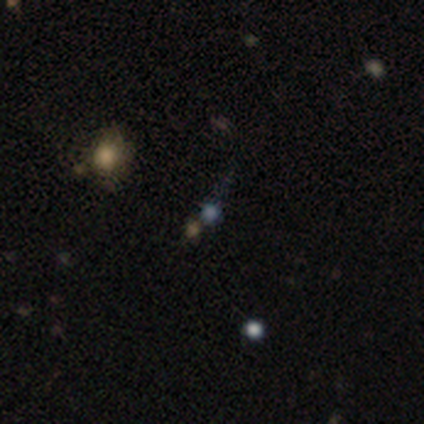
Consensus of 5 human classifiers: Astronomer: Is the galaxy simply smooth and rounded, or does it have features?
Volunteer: featured or disk — 40%, tied with star or artifact at 40%.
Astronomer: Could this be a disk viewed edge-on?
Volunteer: no — 100%.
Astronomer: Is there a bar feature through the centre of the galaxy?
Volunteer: no — 100%.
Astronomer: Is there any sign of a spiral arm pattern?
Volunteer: no — 100%.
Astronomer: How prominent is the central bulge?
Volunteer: moderate — 50%, tied with small at 50%.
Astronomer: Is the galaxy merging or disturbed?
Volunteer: none — 33%, tied with minor disturbance and merger at 33%.